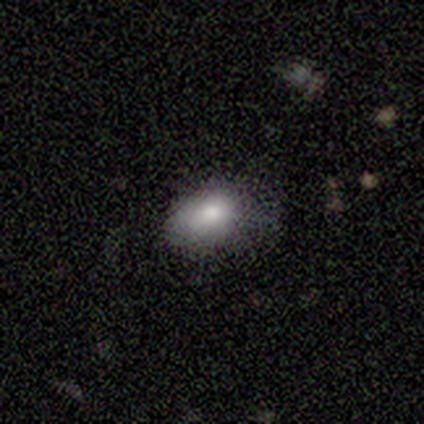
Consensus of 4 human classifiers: smooth 75%, featured or disk 25%, star or artifact 0%. Down the decision tree: how rounded — in between (100%); merging — none (50%, tied with minor disturbance).